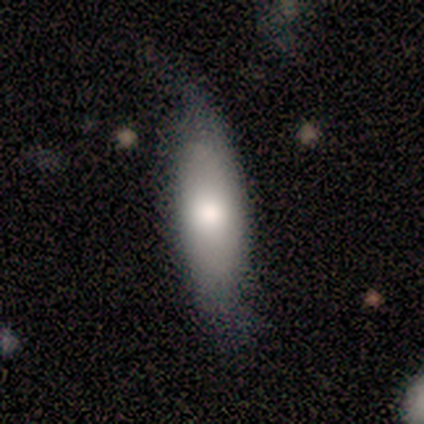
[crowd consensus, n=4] This appears to be a smooth galaxy with no disk features (50%, tied with featured or disk) that is in between round and cigar-shaped (100%). Merging: none (75%).